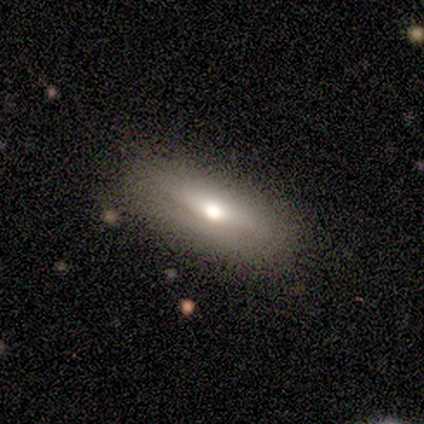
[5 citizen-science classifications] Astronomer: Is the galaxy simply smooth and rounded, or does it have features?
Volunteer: smooth — 80%.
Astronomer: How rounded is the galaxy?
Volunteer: in between — 50%, tied with cigar-shaped at 50%.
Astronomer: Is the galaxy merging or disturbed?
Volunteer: none — 100%.